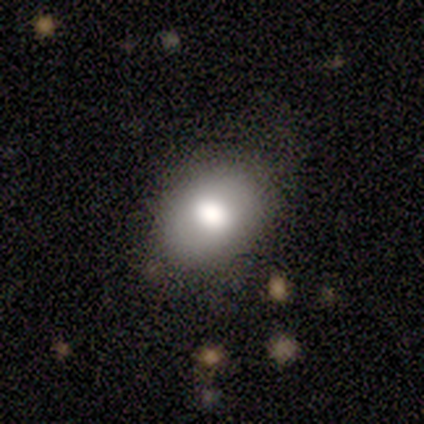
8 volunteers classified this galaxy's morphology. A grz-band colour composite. It shows a smooth galaxy with no disk features (62%) that is in between round and cigar-shaped (100%). Merging: none (100%).